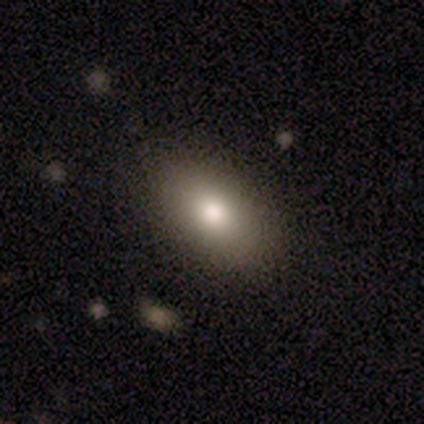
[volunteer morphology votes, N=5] Smooth or featured? 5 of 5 (100%) said smooth. How rounded? 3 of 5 (60%) said in between. Merging? 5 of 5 (100%) said none.